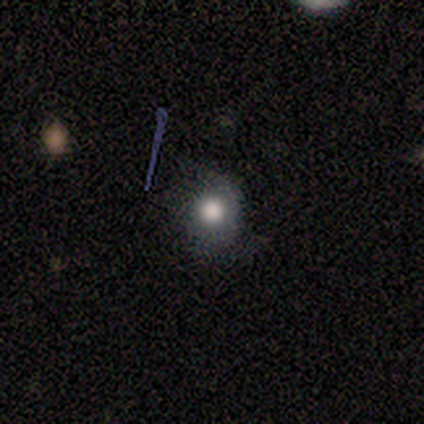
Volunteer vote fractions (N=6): Smooth or featured?
  - smooth: 83% *
  - star or artifact: 17%
  - featured or disk: 0%
How rounded?
  - round: 100% *
  - in between: 0%
  - cigar-shaped: 0%
Merging?
  - none: 80% *
  - minor disturbance: 20%
  - major disturbance: 0%
  - merger: 0%